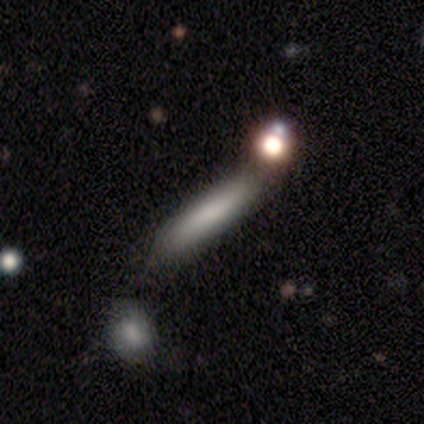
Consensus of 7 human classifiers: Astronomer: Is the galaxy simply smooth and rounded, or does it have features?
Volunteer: smooth — 86%.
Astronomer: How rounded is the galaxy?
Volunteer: cigar-shaped — 83%.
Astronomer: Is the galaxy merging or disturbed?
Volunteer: none — 67%.